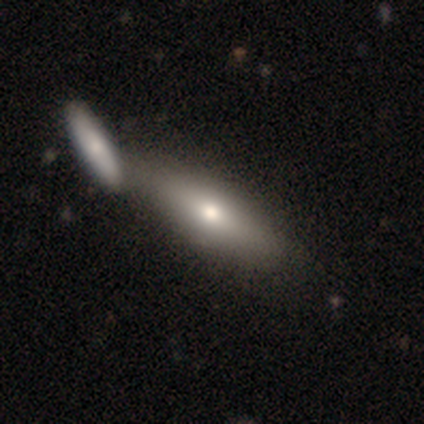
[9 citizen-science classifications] Q: Smooth or featured?
A: smooth (78%); runner-up: featured or disk (22%)
Q: How rounded?
A: cigar-shaped (71%); runner-up: in between (29%)
Q: Merging?
A: none (44%); tied with: merger (44%)